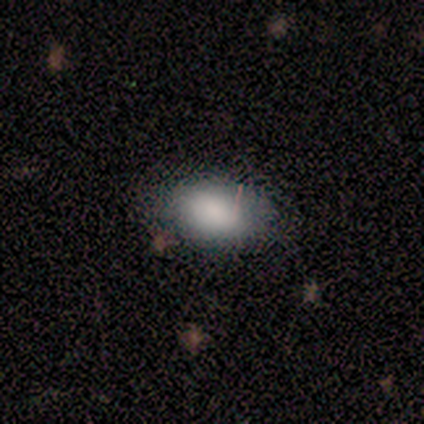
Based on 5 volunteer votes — Q: Smooth or featured?
A: smooth (100%)
Q: How rounded?
A: in between (100%)
Q: Merging?
A: none (60%); runner-up: minor disturbance (20%)